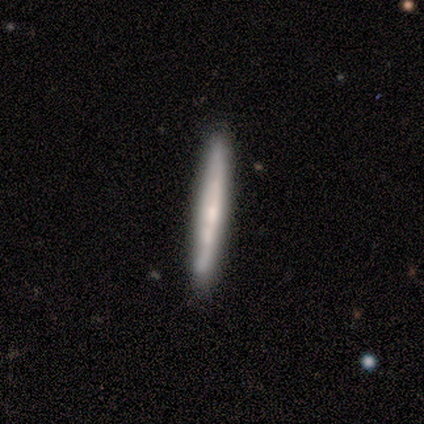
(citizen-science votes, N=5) Smooth or featured?
  - featured or disk: 60% *
  - smooth: 20%
  - star or artifact: 20%
Edge-on disk?
  - yes: 100% *
  - no: 0%
Edge-on bulge?
  - none: 67% *
  - boxy: 33%
  - rounded: 0%
Merging?
  - none: 75% *
  - minor disturbance: 25%
  - major disturbance: 0%
  - merger: 0%